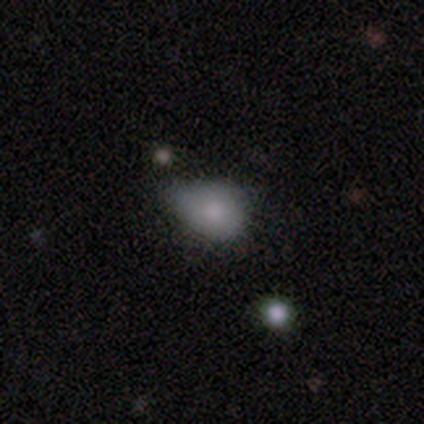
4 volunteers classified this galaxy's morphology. smooth 75%, star or artifact 25%, featured or disk 0%. Down the decision tree: how rounded — in between (67%); merging — none (33%, tied with minor disturbance and major disturbance).